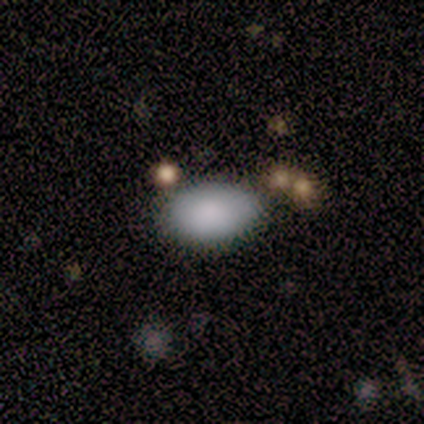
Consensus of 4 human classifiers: smooth_or_featured: smooth (p=1.00)
how_rounded: in between (p=0.75) [alt: round p=0.25]
merging: none (p=1.00)